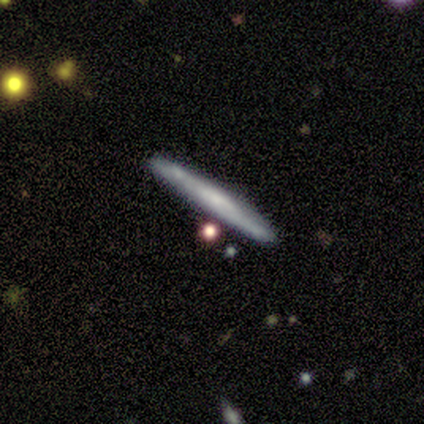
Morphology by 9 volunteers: Overall: featured or disk (56%; smooth 44%). Edge-on disk: yes (100%). Edge-on bulge: none (40%, tied with rounded). Merging: none (78%).